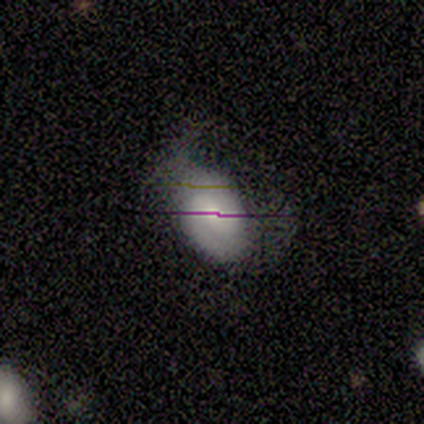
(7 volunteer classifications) Smooth or featured? smooth (43%, tied with featured or disk)
How rounded? in between (100%)
Merging? minor disturbance (50%)